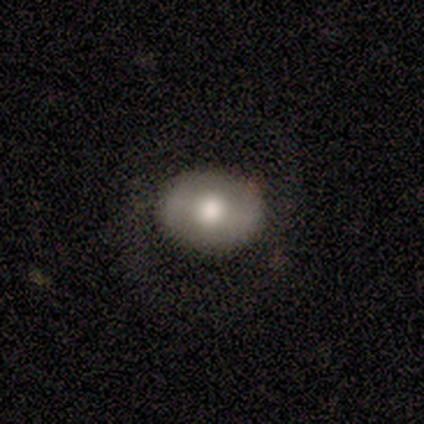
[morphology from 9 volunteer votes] Smooth or featured? smooth (67%)
How rounded? round (50%, tied with in between)
Merging? none (100%)